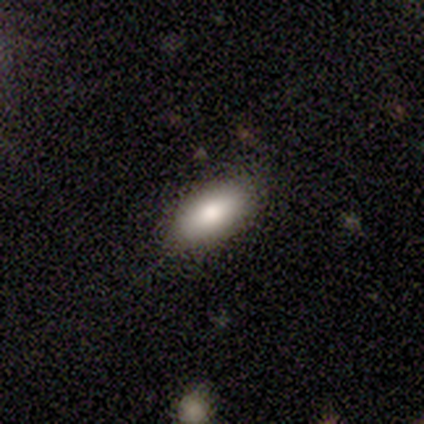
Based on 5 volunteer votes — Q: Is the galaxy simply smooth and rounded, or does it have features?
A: smooth — 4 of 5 (80%).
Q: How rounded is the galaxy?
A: in between — 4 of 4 (100%).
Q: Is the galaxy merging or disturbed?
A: none — 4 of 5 (80%).